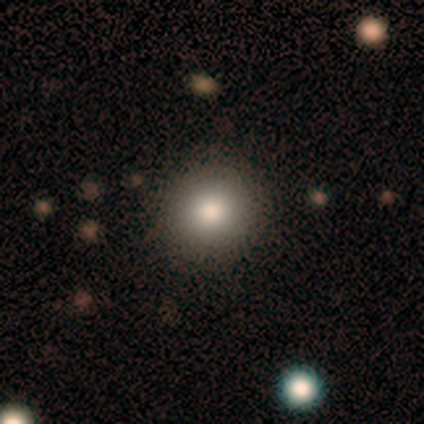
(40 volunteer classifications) Smooth or featured: smooth — 70% (star or artifact — 20%)
How rounded: round — 93% (in between — 7%)
Merging: none — 94% (minor disturbance — 6%)